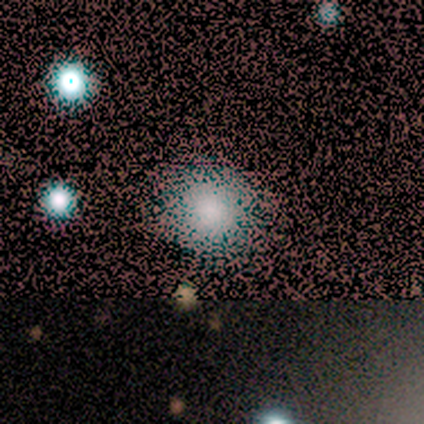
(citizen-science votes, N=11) Smooth or featured?
  - smooth: 55% *
  - star or artifact: 27%
  - featured or disk: 18%
How rounded?
  - round: 100% *
  - in between: 0%
  - cigar-shaped: 0%
Merging?
  - none: 88% *
  - major disturbance: 12%
  - minor disturbance: 0%
  - merger: 0%